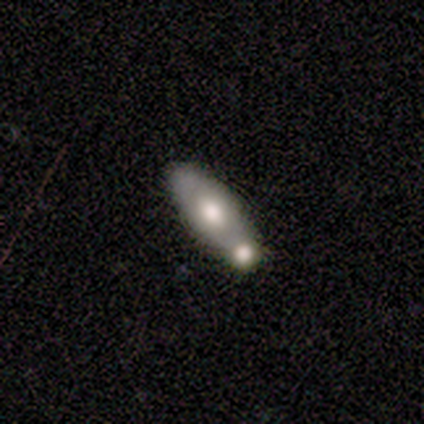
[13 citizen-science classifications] smooth-or-featured: smooth: 46% (tied) | featured or disk: 46% (tied) | star or artifact: 8%
  how-rounded: in between: 67% | cigar-shaped: 33% | round: 0%
  merging: merger: 50% | none: 42% | major disturbance: 8% | minor disturbance: 0%